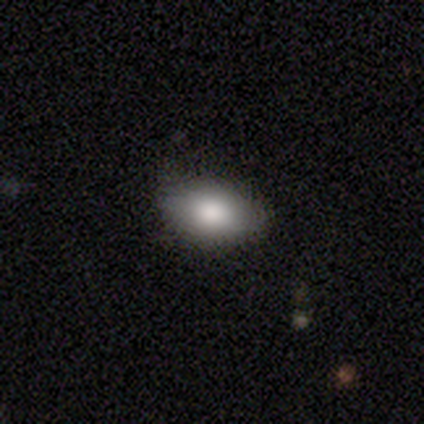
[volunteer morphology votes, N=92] Smooth or featured? smooth (88%)
How rounded? in between (91%)
Merging? none (86%)